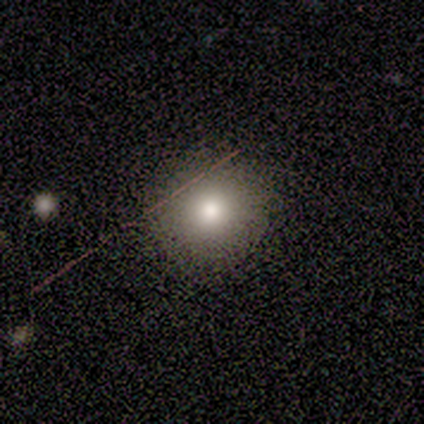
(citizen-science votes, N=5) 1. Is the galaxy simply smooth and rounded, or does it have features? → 60% smooth, 20% featured or disk, 20% star or artifact.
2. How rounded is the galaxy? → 100% round, 0% in between, 0% cigar-shaped.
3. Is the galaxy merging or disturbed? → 100% none, 0% minor disturbance, 0% major disturbance, 0% merger.